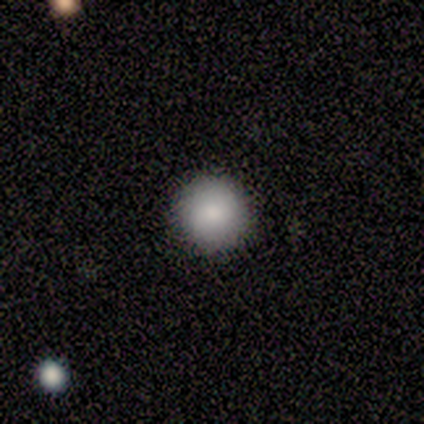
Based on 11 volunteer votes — This appears to be a smooth galaxy with no disk features (82%) that is round (100%). Merging: none (100%).